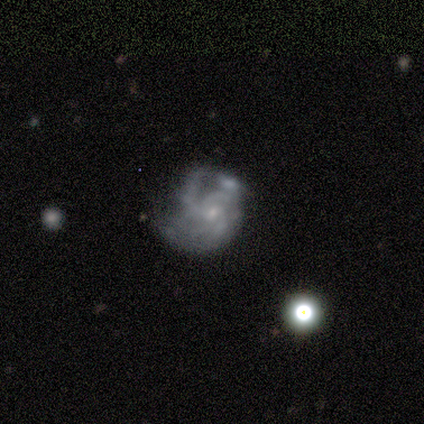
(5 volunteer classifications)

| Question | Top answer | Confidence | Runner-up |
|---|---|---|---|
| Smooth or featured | star or artifact | 60% | featured or disk (40%) |